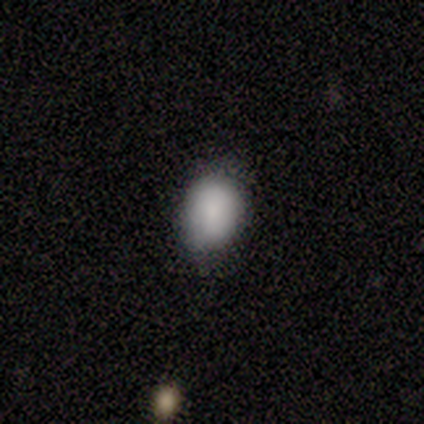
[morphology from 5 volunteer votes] Smooth or featured?
  - smooth: 100% *
  - featured or disk: 0%
  - star or artifact: 0%
How rounded?
  - in between: 100% *
  - round: 0%
  - cigar-shaped: 0%
Merging?
  - minor disturbance: 60% *
  - none: 40%
  - major disturbance: 0%
  - merger: 0%